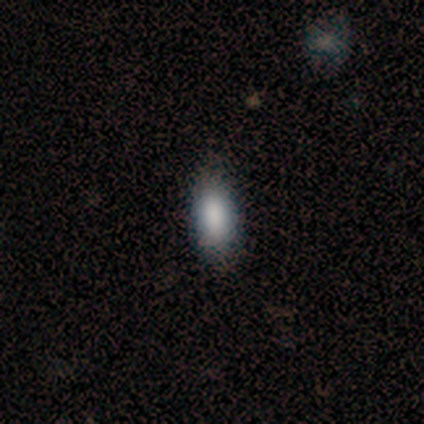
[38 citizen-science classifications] Q: Smooth or featured?
A: smooth (89%); runner-up: featured or disk (5%)
Q: How rounded?
A: in between (79%); runner-up: cigar-shaped (15%)
Q: Merging?
A: none (58%); runner-up: minor disturbance (17%)